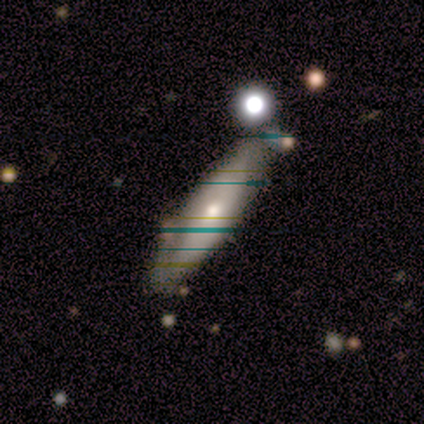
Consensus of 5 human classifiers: This is likely a featured or disk galaxy (60%). It is likely not viewed edge-on (67%). Bar: possibly weak (50%, tied with no). Spiral arm pattern: possibly yes (50%, tied with no). Spiral arm count: clearly can't tell (100%). Spiral winding: clearly medium (100%). Central bulge: possibly moderate (50%, tied with small). Merging: possibly none (50%).